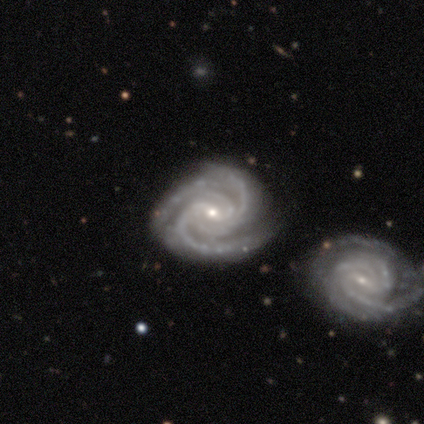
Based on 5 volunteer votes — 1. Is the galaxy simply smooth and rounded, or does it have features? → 100% featured or disk, 0% smooth, 0% star or artifact.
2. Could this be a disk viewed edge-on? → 100% no, 0% yes.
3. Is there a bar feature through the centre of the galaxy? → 40% strong (tied), 40% weak (tied), 20% no.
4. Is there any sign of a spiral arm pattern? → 100% yes, 0% no.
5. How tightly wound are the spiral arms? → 60% tight, 40% medium, 0% loose.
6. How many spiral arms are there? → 40% 3 (tied), 40% 4 (tied), 20% can't tell, 0% 1, 0% 2, 0% more than 4.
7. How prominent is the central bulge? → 60% small, 20% large, 20% moderate, 0% dominant, 0% none.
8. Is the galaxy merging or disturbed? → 60% none, 20% minor disturbance, 20% major disturbance, 0% merger.